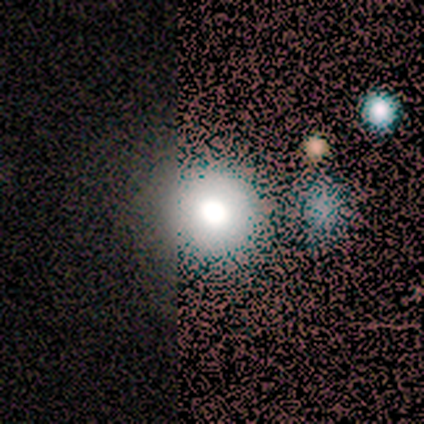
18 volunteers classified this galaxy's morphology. Smooth or featured? smooth (56%)
How rounded? round (90%)
Merging? none (45%)